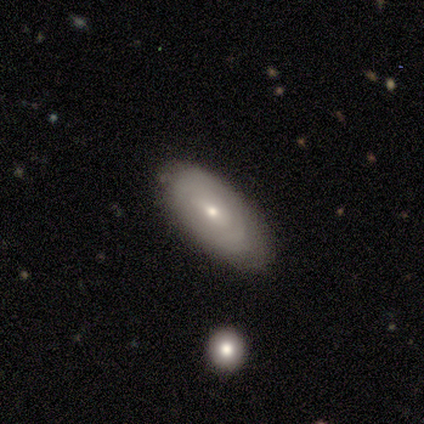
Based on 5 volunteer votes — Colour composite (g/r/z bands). It shows a featured or disk galaxy (60%) with no bar (100%), tight (50%, tied with medium) spiral arms (67%) and a small central bulge (100%). Merging: none (80%).